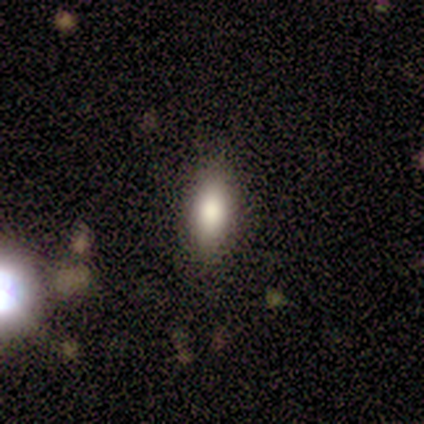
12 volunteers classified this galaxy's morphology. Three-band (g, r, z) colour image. It shows a smooth galaxy with no disk features (83%) that is in between round and cigar-shaped (90%). Merging: none (91%).